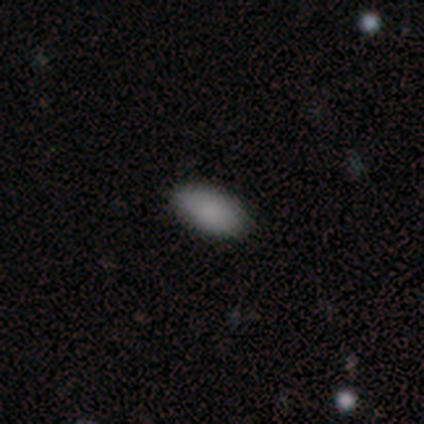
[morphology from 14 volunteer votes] type=smooth (86%); roundness=in between (92%); merging=none (92%).